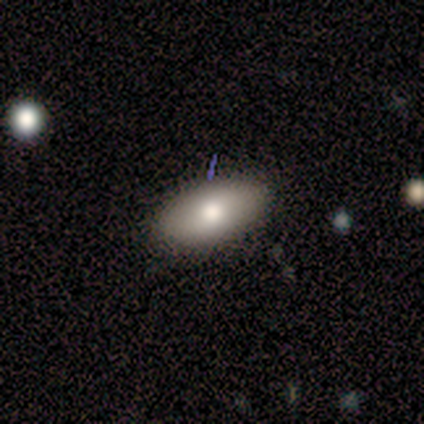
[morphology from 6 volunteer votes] A smooth galaxy with no disk features (83%) that is in between round and cigar-shaped (100%).

Vote fractions:
- Smooth or featured? smooth: 83% / star or artifact: 17% / featured or disk: 0%
- How rounded? in between: 100% / round: 0% / cigar-shaped: 0%
- Merging? none: 60% / minor disturbance: 40% / major disturbance: 0% / merger: 0%